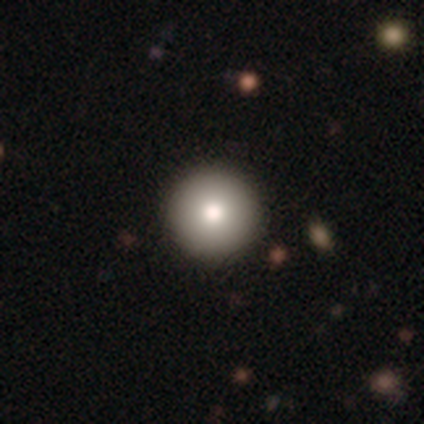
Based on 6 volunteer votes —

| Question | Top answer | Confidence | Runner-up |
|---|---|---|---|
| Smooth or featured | smooth | 100% | — |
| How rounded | round | 100% | — |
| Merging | none | 100% | — |